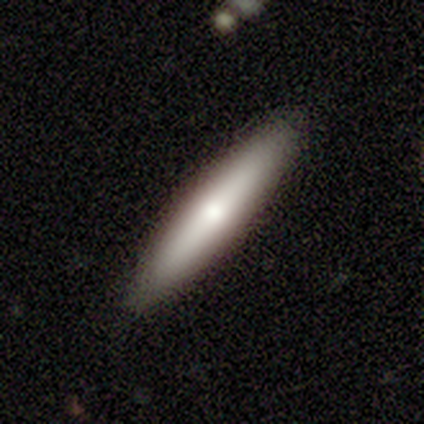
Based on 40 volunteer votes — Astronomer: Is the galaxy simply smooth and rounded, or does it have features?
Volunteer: smooth — 68%.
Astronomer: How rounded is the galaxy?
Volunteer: cigar-shaped — 81%.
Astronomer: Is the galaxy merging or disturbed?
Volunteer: none — 97%.